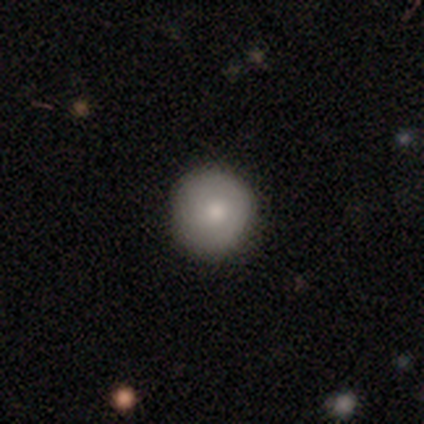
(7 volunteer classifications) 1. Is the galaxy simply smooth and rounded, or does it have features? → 57% smooth, 29% featured or disk, 14% star or artifact.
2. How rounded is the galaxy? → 100% round, 0% in between, 0% cigar-shaped.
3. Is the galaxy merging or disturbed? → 83% none, 17% minor disturbance, 0% major disturbance, 0% merger.